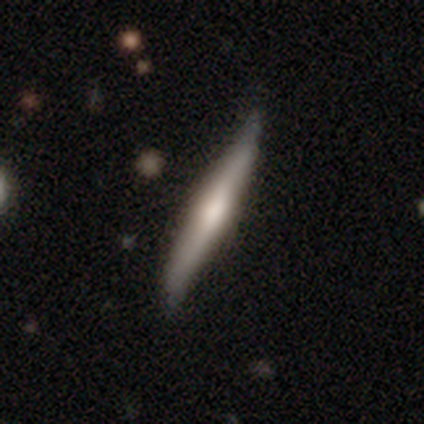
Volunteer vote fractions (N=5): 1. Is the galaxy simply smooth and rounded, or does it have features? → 80% smooth, 20% featured or disk, 0% star or artifact.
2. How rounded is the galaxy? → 100% cigar-shaped, 0% round, 0% in between.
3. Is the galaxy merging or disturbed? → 60% minor disturbance, 40% none, 0% major disturbance, 0% merger.